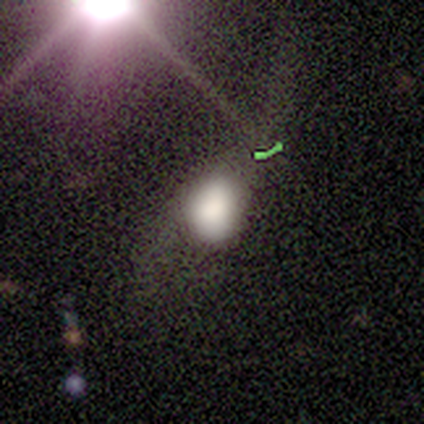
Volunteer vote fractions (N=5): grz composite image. It shows a smooth galaxy with no disk features (100%) that is in between round and cigar-shaped (80%). Merging: none (40%, tied with minor disturbance).